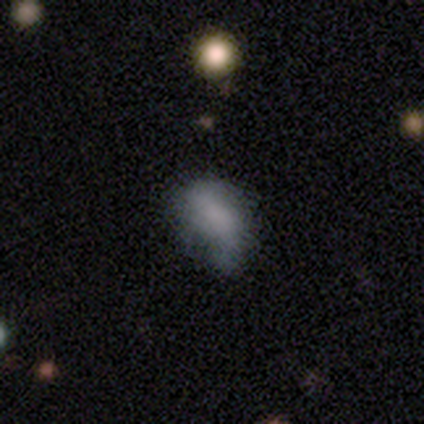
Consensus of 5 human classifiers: smooth-or-featured: smooth: 60% | featured or disk: 40% | star or artifact: 0%
  how-rounded: in between: 67% | round: 33% | cigar-shaped: 0%
  merging: minor disturbance: 40% | none: 20% | major disturbance: 20% | merger: 20%